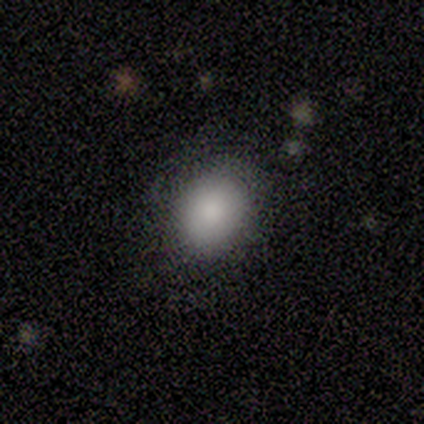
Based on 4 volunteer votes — smooth-or-featured: smooth: 75% | star or artifact: 25% | featured or disk: 0%
  how-rounded: round: 67% | in between: 33% | cigar-shaped: 0%
  merging: none: 67% | minor disturbance: 33% | major disturbance: 0% | merger: 0%